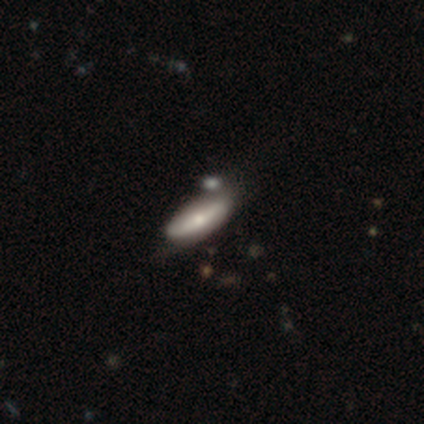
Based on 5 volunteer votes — A featured or disk galaxy (60%) viewed edge-on (100%) with a rounded central bulge (67%). Merging: none (80%).